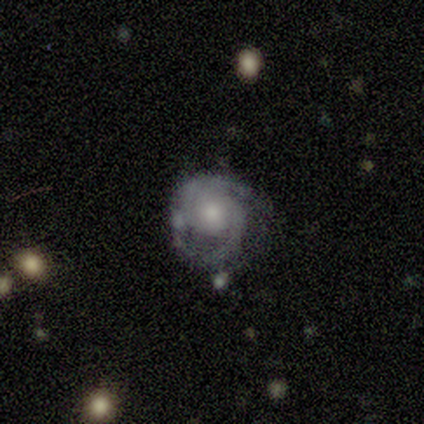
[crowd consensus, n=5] A featured or disk galaxy (100%) with no bar (60%), 2 (80%) medium (80%) spiral arms (100%) and a moderate central bulge (60%). Merging: none (80%).